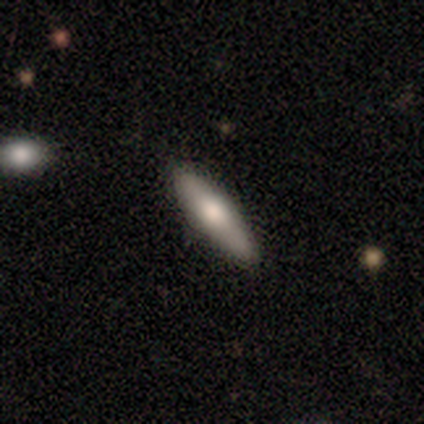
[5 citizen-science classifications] smooth-or-featured: smooth: 80% | featured or disk: 20% | star or artifact: 0%
  how-rounded: cigar-shaped: 100% | round: 0% | in between: 0%
  merging: none: 100% | minor disturbance: 0% | major disturbance: 0% | merger: 0%